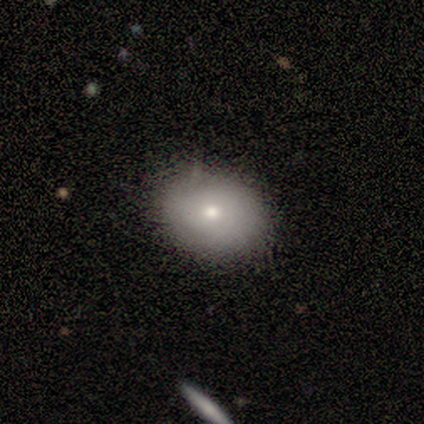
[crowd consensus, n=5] Smooth or featured: smooth — 60% (featured or disk — 20%)
How rounded: in between — 100%
Merging: none — 100%